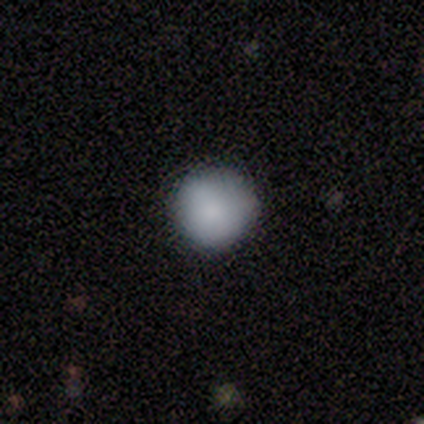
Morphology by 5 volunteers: Smooth or featured? smooth (100%)
How rounded? round (100%)
Merging? none (80%)